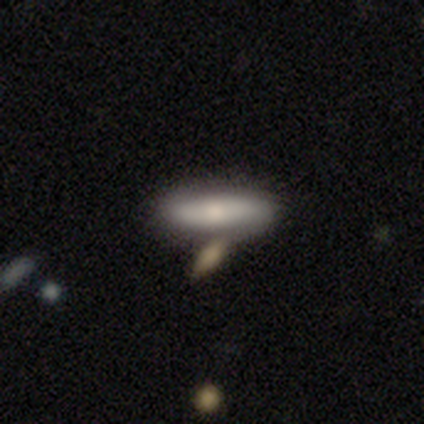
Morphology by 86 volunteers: Smooth or featured?
  - smooth: 64% *
  - featured or disk: 24%
  - star or artifact: 12%
How rounded?
  - cigar-shaped: 56% *
  - in between: 44%
  - round: 0%
Merging?
  - none: 68% *
  - merger: 20%
  - minor disturbance: 12%
  - major disturbance: 0%